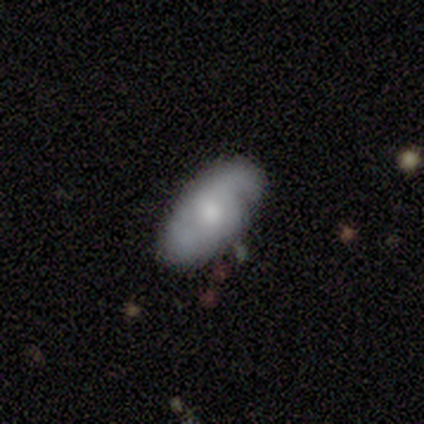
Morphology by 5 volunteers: smooth-or-featured: smooth: 60% | featured or disk: 40% | star or artifact: 0%
  how-rounded: in between: 100% | round: 0% | cigar-shaped: 0%
  merging: none: 40% (tied) | minor disturbance: 40% (tied) | merger: 20% | major disturbance: 0%